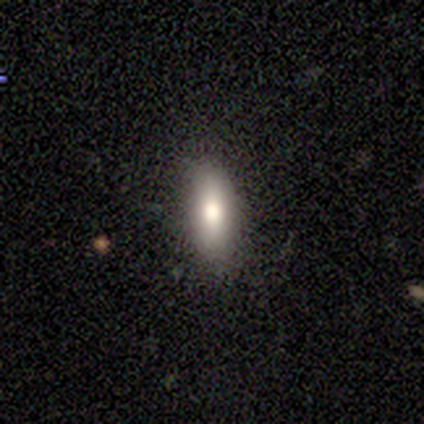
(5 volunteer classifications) smooth 60%, featured or disk 20%, star or artifact 20%. Down the decision tree: how rounded — in between (100%); merging — none (100%).